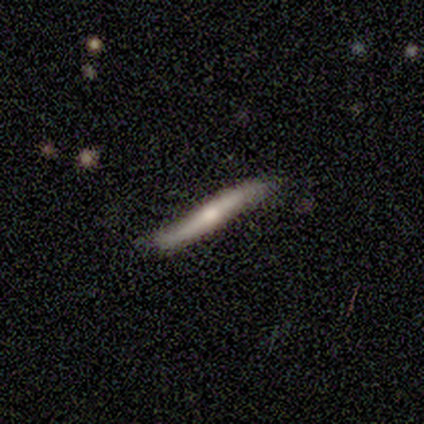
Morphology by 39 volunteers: A featured or disk galaxy (59%) viewed edge-on (87%) with a rounded central bulge (60%).

Vote fractions:
- Smooth or featured? featured or disk: 59% / smooth: 38% / star or artifact: 3%
- Edge-on disk? yes: 87% / no: 13%
- Edge-on bulge? rounded: 60% / none: 35% / boxy: 5%
- Merging? none: 82% / minor disturbance: 18% / major disturbance: 0% / merger: 0%